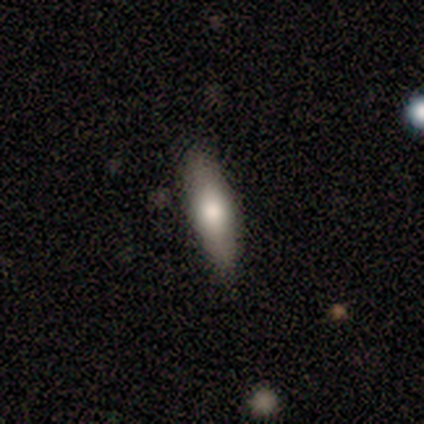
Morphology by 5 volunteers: smooth 80%, featured or disk 20%, star or artifact 0%. Down the decision tree: how rounded — cigar-shaped (75%); merging — none (100%).